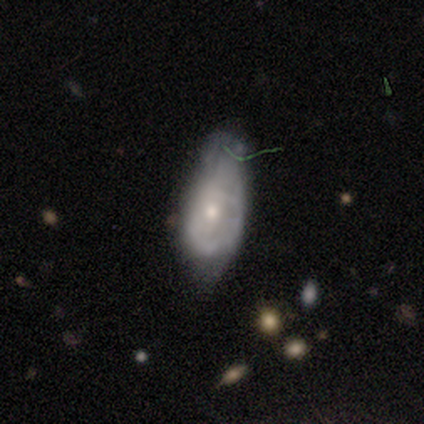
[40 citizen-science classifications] smooth_or_featured: featured or disk (p=0.53) [alt: smooth p=0.38]
disk_edge_on: no (p=0.86) [alt: yes p=0.14]
bar: no (p=0.72) [alt: strong p=0.17]
has_spiral_arms: yes (p=0.50) [tied with: no p=0.50]
spiral_winding: tight (p=0.44) [alt: loose p=0.33]
spiral_arm_count: can't tell (p=0.67) [alt: 1 p=0.11]
bulge_size: small (p=0.56) [alt: moderate p=0.44]
merging: minor disturbance (p=0.44) [alt: major disturbance p=0.28]